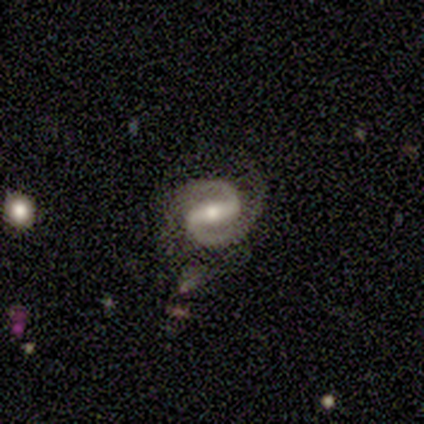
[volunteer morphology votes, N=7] Smooth or featured: featured or disk — 86% (star or artifact — 14%)
Edge-on disk: no — 100%
Bar: strong — 67% (weak — 33%)
Spiral arms: yes — 100%
Spiral winding: medium — 50% (tied with loose — 50%)
Spiral arm count: 2 — 100%
Bulge size: moderate — 83% (small — 17%)
Merging: none — 67% (minor disturbance — 17%)